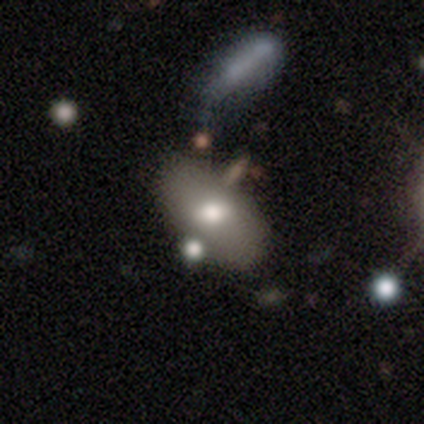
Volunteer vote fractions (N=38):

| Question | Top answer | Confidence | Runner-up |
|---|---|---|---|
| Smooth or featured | smooth | 61% | featured or disk (32%) |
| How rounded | in between | 87% | cigar-shaped (9%) |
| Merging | none | 63% | minor disturbance (20%) |